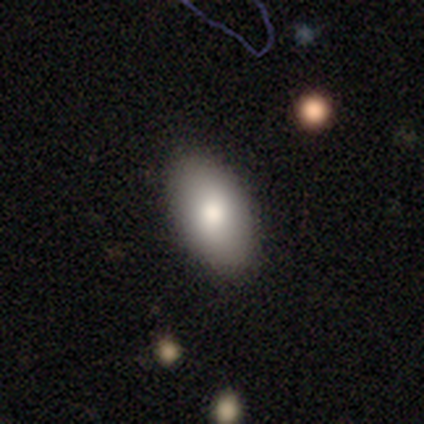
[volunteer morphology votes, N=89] Volunteers were most divided on "merging": none: 86%, minor disturbance: 10%, major disturbance: 4%, merger: 1%. More confident: how rounded — in between (94%); smooth or featured — smooth (88%).